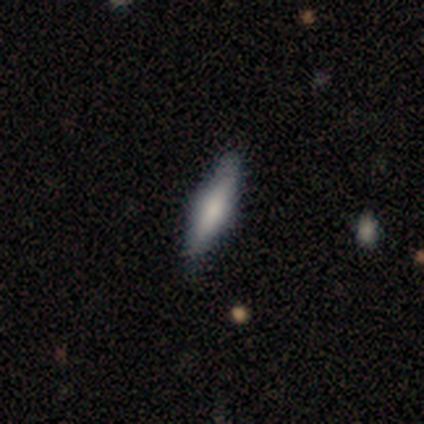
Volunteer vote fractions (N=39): Smooth or featured?
  - smooth: 69% *
  - featured or disk: 26%
  - star or artifact: 5%
How rounded?
  - cigar-shaped: 67% *
  - in between: 33%
  - round: 0%
Merging?
  - none: 51% *
  - minor disturbance: 8%
  - major disturbance: 3%
  - merger: 0%